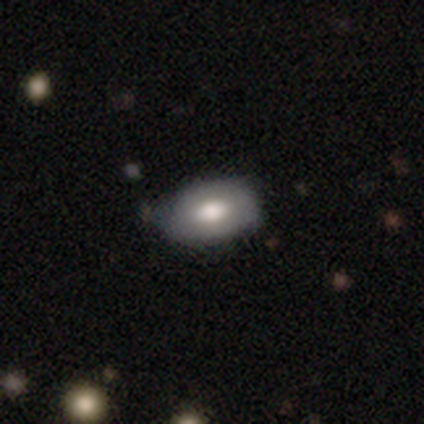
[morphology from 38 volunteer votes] Smooth or featured?
  - smooth: 68% *
  - featured or disk: 26%
  - star or artifact: 5%
How rounded?
  - in between: 85% *
  - round: 15%
  - cigar-shaped: 0%
Merging?
  - none: 53% *
  - minor disturbance: 25%
  - merger: 3%
  - major disturbance: 0%